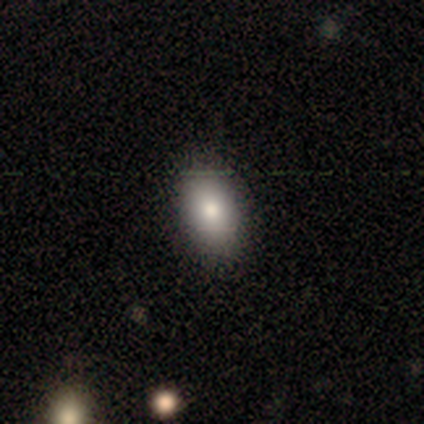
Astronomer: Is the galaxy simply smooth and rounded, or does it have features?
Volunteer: smooth — 76%.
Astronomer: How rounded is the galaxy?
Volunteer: in between — 93%.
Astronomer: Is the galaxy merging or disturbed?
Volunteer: none — 65%.